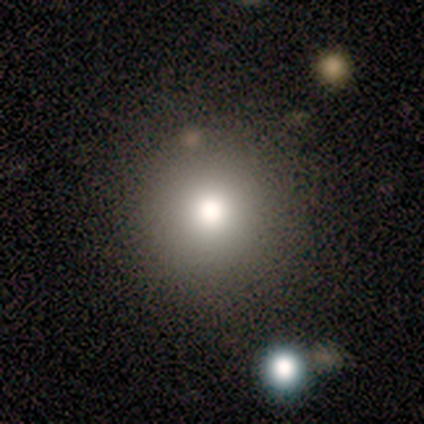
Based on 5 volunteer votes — Smooth or featured? smooth (80%)
How rounded? round (100%)
Merging? none (100%)